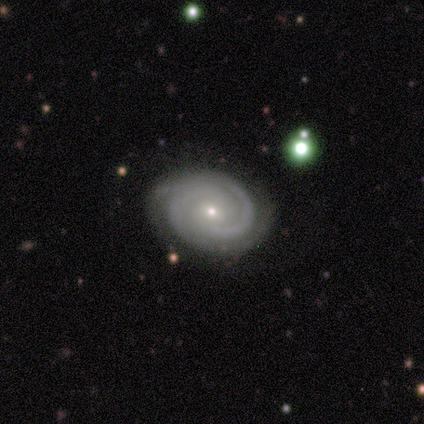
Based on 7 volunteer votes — Smooth or featured? 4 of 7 (57%) said featured or disk. Edge-on disk? 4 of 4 (100%) said no. Bar? 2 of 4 (50%, tied with no) said weak. Spiral arms? 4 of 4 (100%) said yes. Spiral winding? 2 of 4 (50%, tied with medium) said tight. Spiral arm count? 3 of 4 (75%) said 2. Bulge size? 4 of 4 (100%) said small. Merging? 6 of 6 (100%) said none.